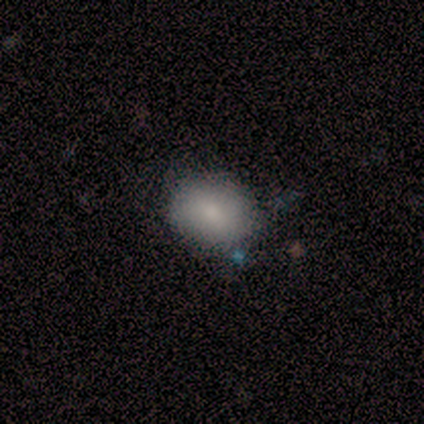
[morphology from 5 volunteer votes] A smooth galaxy with no disk features (80%) that is in between round and cigar-shaped (75%). Merging: none (75%).